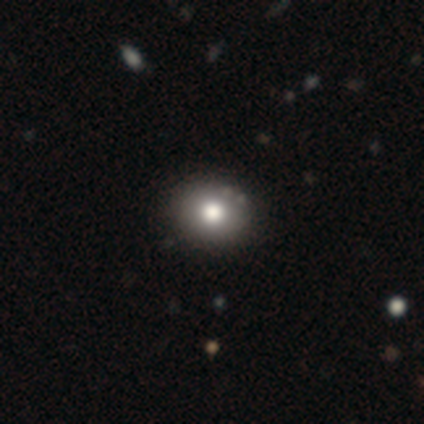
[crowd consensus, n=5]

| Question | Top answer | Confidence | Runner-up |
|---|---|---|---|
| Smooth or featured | smooth | 40% | tied: featured or disk (40%) |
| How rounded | round | 100% | — |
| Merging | none | 75% | minor disturbance (25%) |